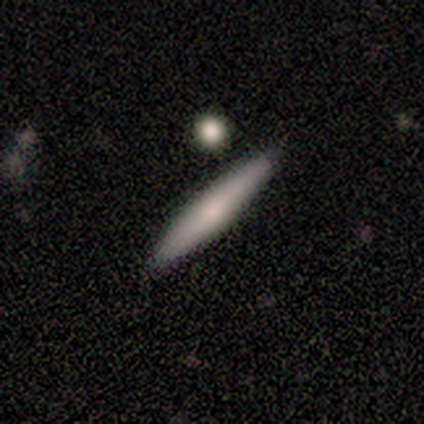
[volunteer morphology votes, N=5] Smooth or featured? featured or disk (60%)
Edge-on disk? yes (100%)
Edge-on bulge? none (67%)
Merging? none (80%)